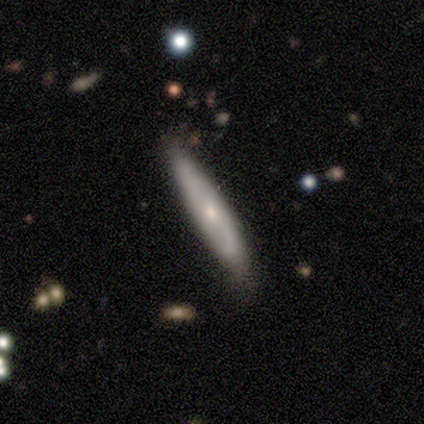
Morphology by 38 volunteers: Smooth or featured? 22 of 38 (58%) said featured or disk. Edge-on disk? 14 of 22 (64%) said yes. Edge-on bulge? 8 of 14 (57%) said rounded. Merging? 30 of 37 (81%) said none.